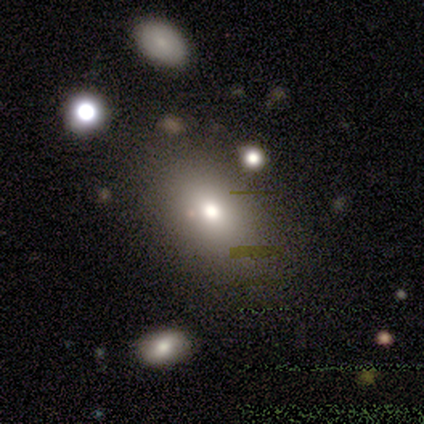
This appears to be a smooth galaxy with no disk features (80%) that is in between round and cigar-shaped (75%). Merging: none (80%).